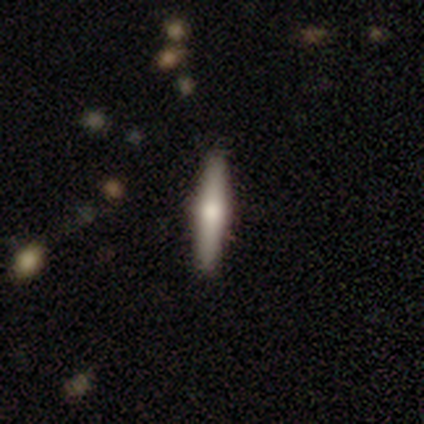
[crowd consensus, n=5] Volunteers were most divided on "smooth or featured": featured or disk: 60%, smooth: 40%, star or artifact: 0%. More confident: edge-on disk — yes (100%); edge-on bulge — rounded (100%); merging — none (100%).